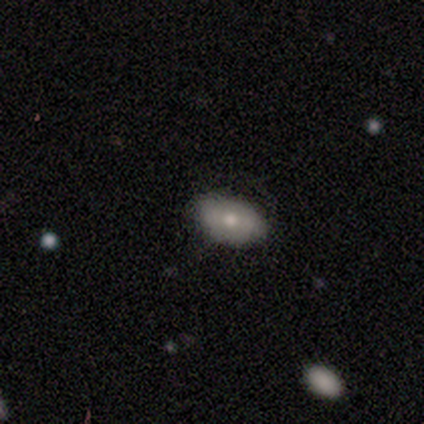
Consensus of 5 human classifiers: Morphology: type=smooth (100%); roundness=in between (80%); merging=none (60%).